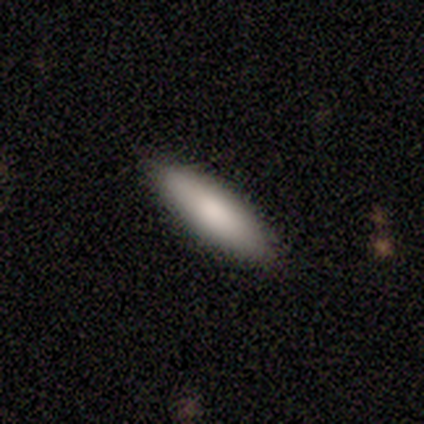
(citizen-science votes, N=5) Smooth or featured? smooth (80%)
How rounded? in between (100%)
Merging? none (100%)